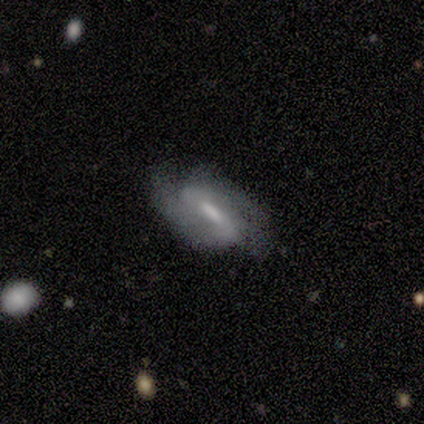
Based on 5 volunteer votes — smooth-or-featured: featured or disk: 60% | smooth: 40% | star or artifact: 0%
  disk-edge-on: no: 100% | yes: 0%
    bar: weak: 100% | strong: 0% | no: 0%
    has-spiral-arms: yes: 67% | no: 33%
      spiral-winding: tight: 50% (tied) | medium: 50% (tied) | loose: 0%
      spiral-arm-count: 2: 100% | 1: 0% | 3: 0% | 4: 0% | more than 4: 0% | can't tell: 0%
    bulge-size: moderate: 67% | none: 33% | dominant: 0% | large: 0% | small: 0%
  merging: none: 100% | minor disturbance: 0% | major disturbance: 0% | merger: 0%